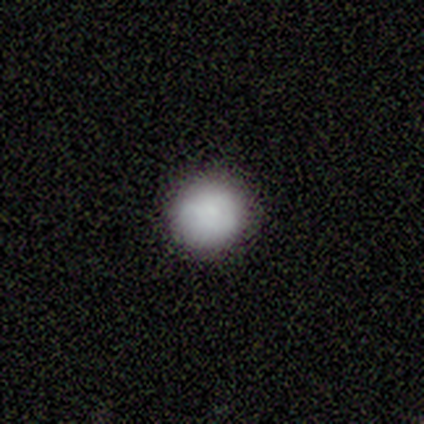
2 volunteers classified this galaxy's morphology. Consensus on every question: smooth or featured — smooth (100%); how rounded — round (100%); merging — none (100%).